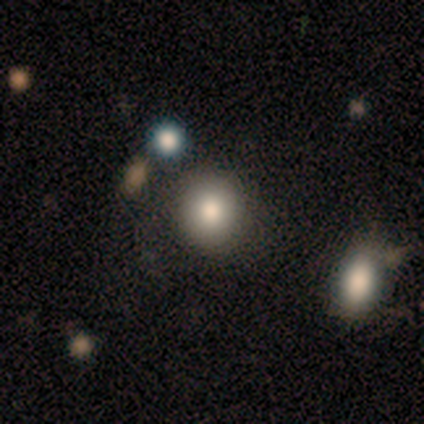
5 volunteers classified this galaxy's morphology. Q: Smooth or featured?
A: smooth (80%); runner-up: star or artifact (20%)
Q: How rounded?
A: round (75%); runner-up: in between (25%)
Q: Merging?
A: none (100%)